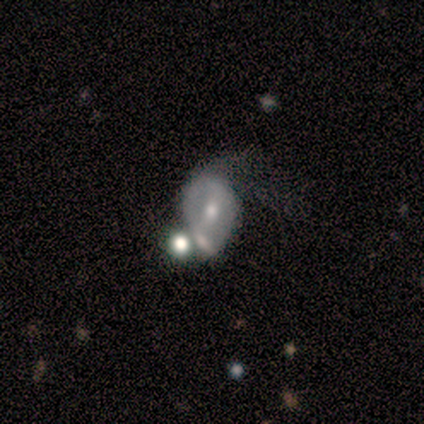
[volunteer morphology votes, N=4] A featured or disk galaxy (75%) with no bar (100%), no spiral arms (100%) and a moderate central bulge (67%).

Vote fractions:
- Smooth or featured? featured or disk: 75% / smooth: 25% / star or artifact: 0%
- Edge-on disk? no: 100% / yes: 0%
- Bar? no: 100% / strong: 0% / weak: 0%
- Spiral arms? no: 100% / yes: 0%
- Bulge size? moderate: 67% / small: 33% / dominant: 0% / large: 0% / none: 0%
- Merging? merger: 75% / minor disturbance: 25% / none: 0% / major disturbance: 0%